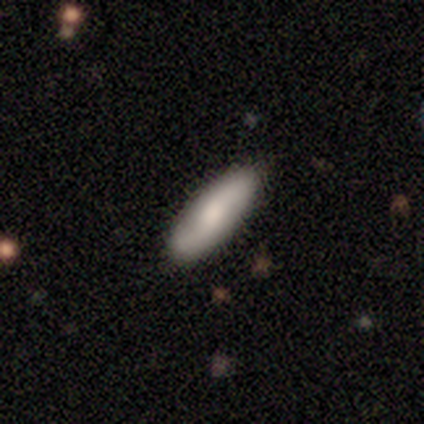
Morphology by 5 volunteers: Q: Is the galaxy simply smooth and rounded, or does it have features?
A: smooth — 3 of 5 (60%).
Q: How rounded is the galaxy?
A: in between — 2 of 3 (67%).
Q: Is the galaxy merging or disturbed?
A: none — 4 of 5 (80%).